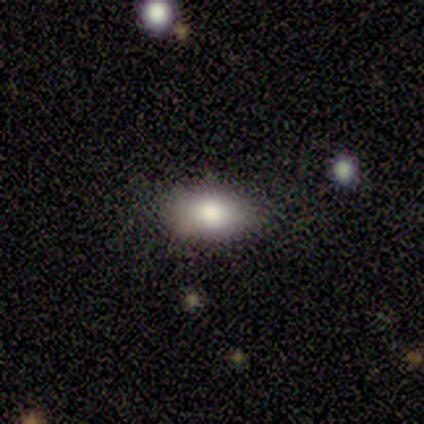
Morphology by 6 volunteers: Volunteers were most divided on "merging" (2-way tie): none: 50%, minor disturbance: 50%, major disturbance: 0%, merger: 0%. More confident: smooth or featured — smooth (100%); how rounded — in between (100%).